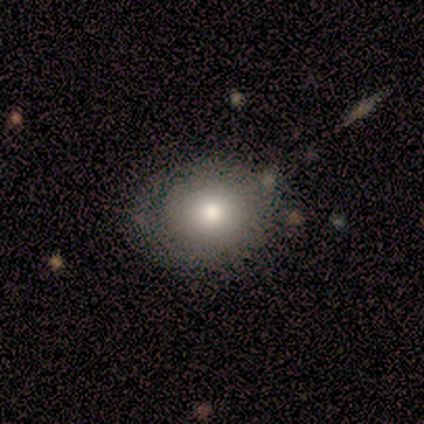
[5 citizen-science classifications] smooth-or-featured: smooth: 100% | featured or disk: 0% | star or artifact: 0%
  how-rounded: in between: 60% | round: 40% | cigar-shaped: 0%
  merging: none: 80% | minor disturbance: 20% | major disturbance: 0% | merger: 0%